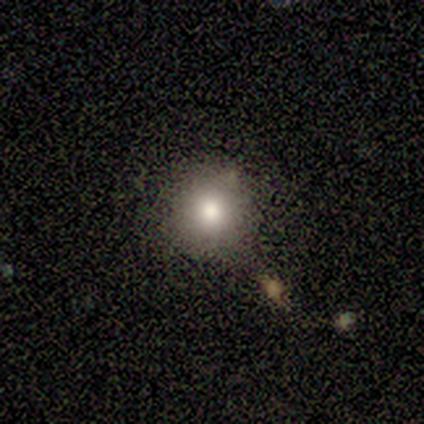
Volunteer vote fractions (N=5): Smooth or featured: smooth — 100%
How rounded: round — 100%
Merging: none — 80% (merger — 20%)